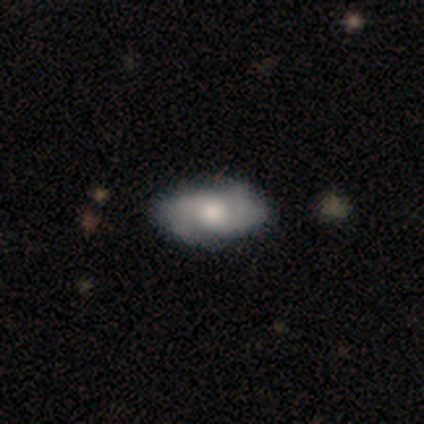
Smooth or featured? featured or disk (60%)
Edge-on disk? no (100%)
Bar? no (67%)
Spiral arms? yes (100%)
Spiral winding? medium (67%)
Spiral arm count? 2 (33%, tied with 3 and can't tell)
Bulge size? moderate (67%)
Merging? none (67%)